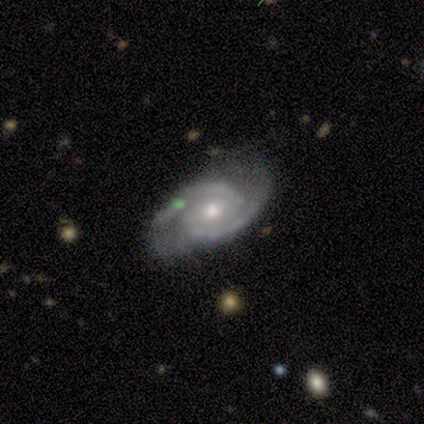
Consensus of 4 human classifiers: A featured or disk galaxy (100%) with no bar (50%), 2 (100%) tight (100%) spiral arms (100%) and a moderate central bulge (75%).

Vote fractions:
- Smooth or featured? featured or disk: 100% / smooth: 0% / star or artifact: 0%
- Edge-on disk? no: 100% / yes: 0%
- Bar? no: 50% / strong: 25% / weak: 25%
- Spiral arms? yes: 100% / no: 0%
- Spiral winding? tight: 100% / medium: 0% / loose: 0%
- Spiral arm count? 2: 100% / 1: 0% / 3: 0% / 4: 0% / more than 4: 0% / can't tell: 0%
- Bulge size? moderate: 75% / small: 25% / dominant: 0% / large: 0% / none: 0%
- Merging? none: 75% / major disturbance: 25% / minor disturbance: 0% / merger: 0%